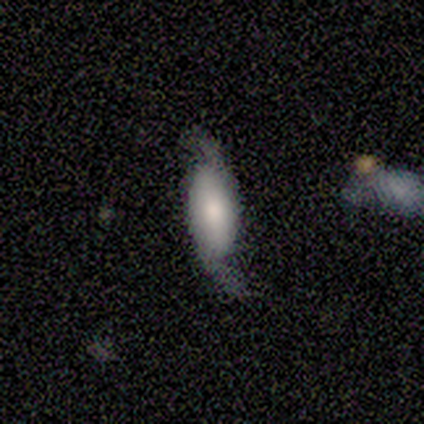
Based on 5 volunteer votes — A featured or disk galaxy (60%) with no bar (100%), 2 (100%) medium (67%) spiral arms (100%) and a small central bulge (67%).

Vote fractions:
- Smooth or featured? featured or disk: 60% / smooth: 20% / star or artifact: 20%
- Edge-on disk? no: 100% / yes: 0%
- Bar? no: 100% / strong: 0% / weak: 0%
- Spiral arms? yes: 100% / no: 0%
- Spiral winding? medium: 67% / loose: 33% / tight: 0%
- Spiral arm count? 2: 100% / 1: 0% / 3: 0% / 4: 0% / more than 4: 0% / can't tell: 0%
- Bulge size? small: 67% / moderate: 33% / dominant: 0% / large: 0% / none: 0%
- Merging? none: 75% / minor disturbance: 25% / major disturbance: 0% / merger: 0%